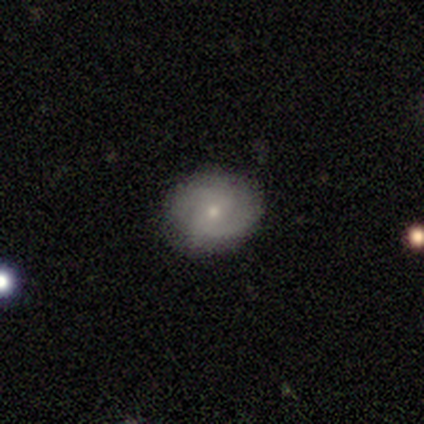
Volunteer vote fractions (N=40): Smooth or featured?
  - featured or disk: 60% *
  - smooth: 28%
  - star or artifact: 12%
Edge-on disk?
  - no: 100% *
  - yes: 0%
Bar?
  - weak: 54% *
  - no: 38%
  - strong: 8%
Spiral arms?
  - yes: 92% *
  - no: 8%
Spiral winding?
  - tight: 45% *
  - medium: 32%
  - loose: 23%
Spiral arm count?
  - 2: 64% *
  - can't tell: 27%
  - 1: 5%
  - 4: 5%
  - 3: 0%
  - more than 4: 0%
Bulge size?
  - small: 75% *
  - moderate: 25%
  - dominant: 0%
  - large: 0%
  - none: 0%
Merging?
  - none: 89% *
  - minor disturbance: 11%
  - major disturbance: 0%
  - merger: 0%